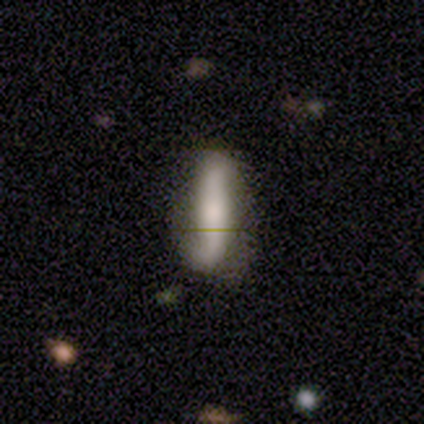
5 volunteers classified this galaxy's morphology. Smooth or featured: featured or disk — 80% (smooth — 20%)
Edge-on disk: yes — 50% (tied with no — 50%)
Edge-on bulge: rounded — 100%
Merging: none — 60% (minor disturbance — 20%)